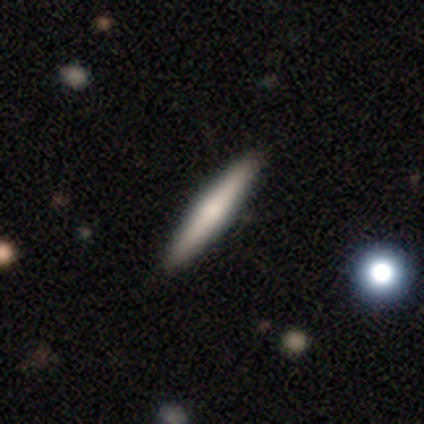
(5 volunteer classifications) smooth-or-featured: smooth: 60% | featured or disk: 40% | star or artifact: 0%
  how-rounded: cigar-shaped: 100% | round: 0% | in between: 0%
  merging: none: 100% | minor disturbance: 0% | major disturbance: 0% | merger: 0%